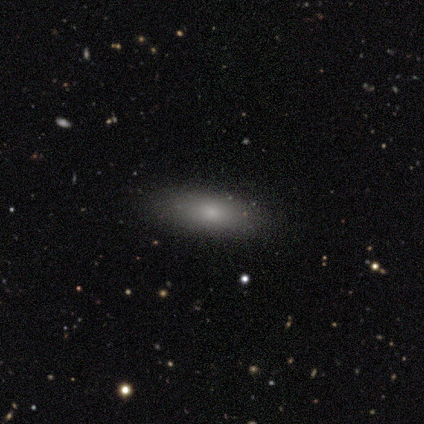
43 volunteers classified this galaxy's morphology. A smooth galaxy with no disk features (91%) that is in between round and cigar-shaped (85%). Merging: none (88%).